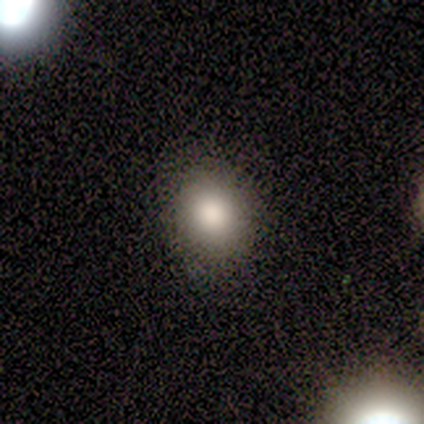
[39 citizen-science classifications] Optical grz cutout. It shows a smooth galaxy with no disk features (87%) that is round (74%). Merging: none (61%).